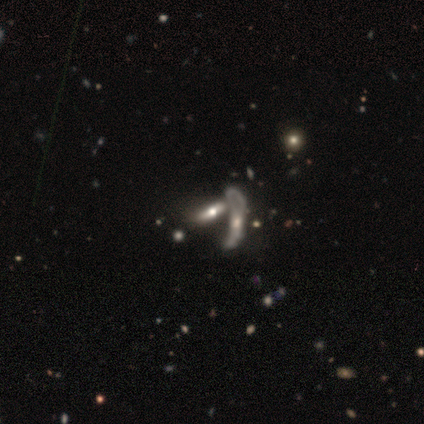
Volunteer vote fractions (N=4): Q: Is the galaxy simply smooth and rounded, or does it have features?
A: featured or disk — 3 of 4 (75%).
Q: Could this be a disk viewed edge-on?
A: no — 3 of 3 (100%).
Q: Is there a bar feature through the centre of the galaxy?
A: no — 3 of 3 (100%).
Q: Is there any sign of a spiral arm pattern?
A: no — 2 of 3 (67%).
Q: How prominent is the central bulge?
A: large — 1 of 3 (33%, tied with moderate and small).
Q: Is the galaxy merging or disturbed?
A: merger — 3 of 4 (75%).